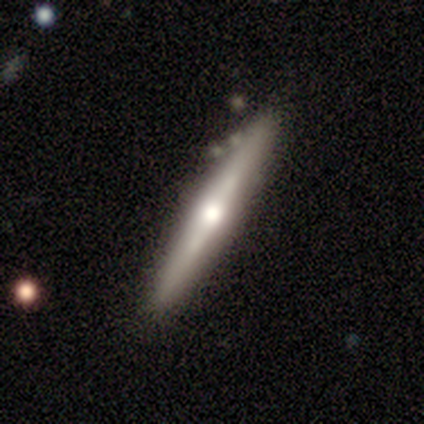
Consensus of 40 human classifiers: smooth_or_featured: featured or disk (p=0.85) [alt: smooth p=0.12]
disk_edge_on: yes (p=0.97) [alt: no p=0.03]
edge_on_bulge: rounded (p=0.79) [alt: none p=0.18]
merging: none (p=0.90) [alt: minor disturbance p=0.05]